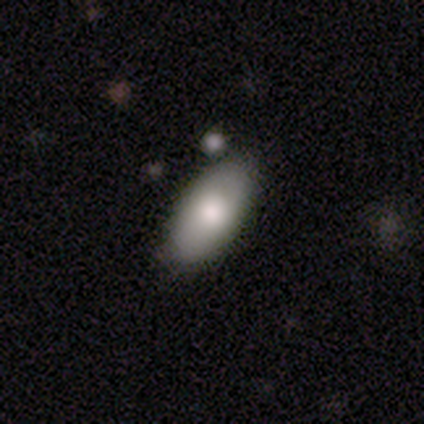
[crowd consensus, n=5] Volunteers were most divided on "smooth or featured": smooth: 80%, featured or disk: 20%, star or artifact: 0%. More confident: how rounded — in between (100%); merging — none (80%).